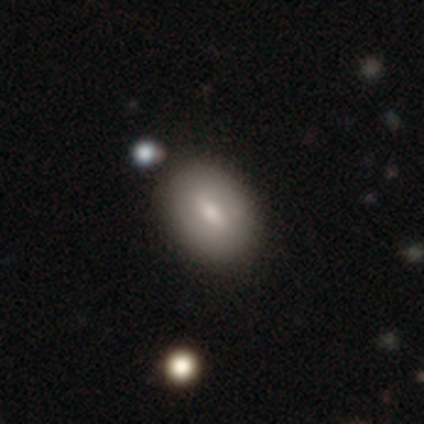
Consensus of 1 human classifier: smooth-or-featured: smooth: 100% | featured or disk: 0% | star or artifact: 0%
  how-rounded: in between: 100% | round: 0% | cigar-shaped: 0%
  merging: none: 100% | minor disturbance: 0% | major disturbance: 0% | merger: 0%